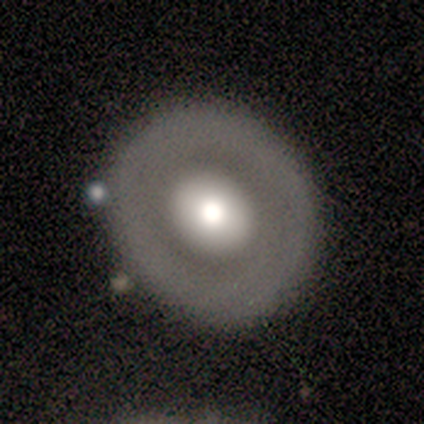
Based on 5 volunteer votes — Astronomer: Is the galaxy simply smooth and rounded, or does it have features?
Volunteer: featured or disk — 80%.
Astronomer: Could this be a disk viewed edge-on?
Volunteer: no — 100%.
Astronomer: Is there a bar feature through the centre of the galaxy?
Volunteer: no — 100%.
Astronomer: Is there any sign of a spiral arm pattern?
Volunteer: no — 100%.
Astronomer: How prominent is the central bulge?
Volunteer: moderate — 75%.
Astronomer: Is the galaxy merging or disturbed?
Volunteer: none — 80%.